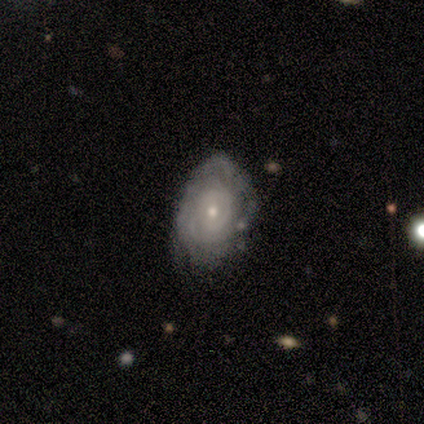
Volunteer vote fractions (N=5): Overall: featured or disk (60%; smooth 40%). Edge-on disk: no (100%). Bar: no (67%; weak 33%). Spiral arms: yes (100%). Spiral arm count: can't tell (100%). Spiral winding: medium (67%; tight 33%). Bulge size: small (100%). Merging: none (60%; minor disturbance 40%).